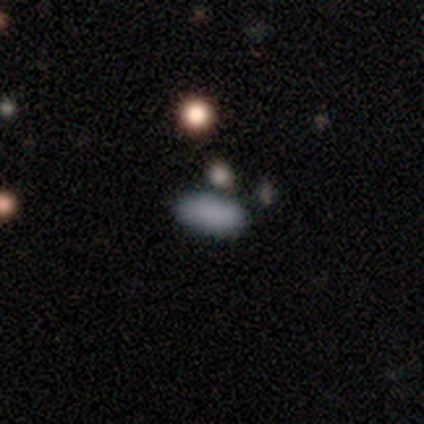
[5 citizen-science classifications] smooth-or-featured: smooth: 100% | featured or disk: 0% | star or artifact: 0%
  how-rounded: in between: 100% | round: 0% | cigar-shaped: 0%
  merging: none: 100% | minor disturbance: 0% | major disturbance: 0% | merger: 0%